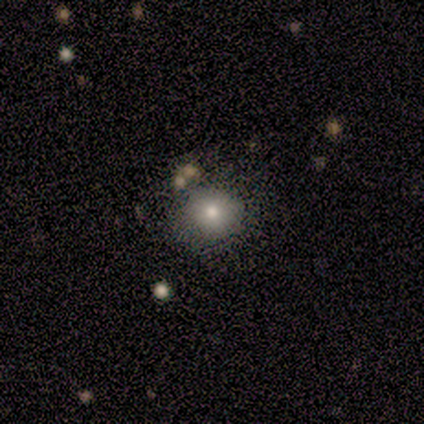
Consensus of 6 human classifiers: Overall: smooth (83%). How rounded: round (80%). Merging: none (67%; minor disturbance 33%).